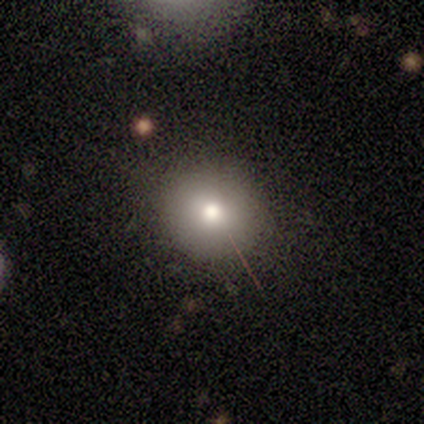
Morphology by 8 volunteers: A smooth galaxy with no disk features (62%) that is round (100%). Merging: none (71%).